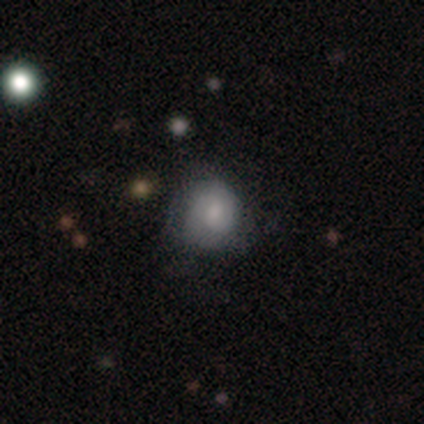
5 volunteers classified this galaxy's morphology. smooth_or_featured: smooth (p=0.80) [alt: star or artifact p=0.20]
how_rounded: round (p=1.00)
merging: minor disturbance (p=0.75) [alt: none p=0.25]